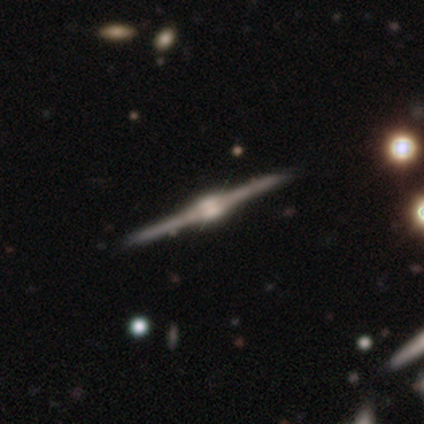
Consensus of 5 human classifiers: A featured or disk galaxy (100%) viewed edge-on (100%) with a rounded central bulge (80%). Merging: none (80%).